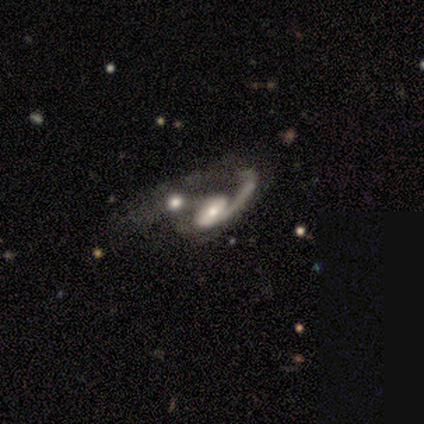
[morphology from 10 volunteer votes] Smooth or featured: featured or disk — 80% (smooth — 20%)
Edge-on disk: no — 100%
Bar: weak — 50% (no — 38%)
Spiral arms: yes — 100%
Spiral winding: loose — 50% (medium — 38%)
Spiral arm count: 1 — 62% (2 — 38%)
Bulge size: small — 62% (moderate — 25%)
Merging: merger — 80% (major disturbance — 20%)